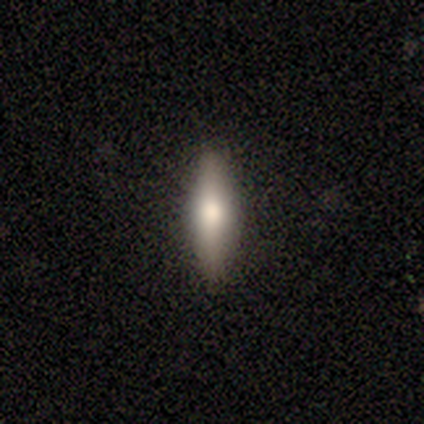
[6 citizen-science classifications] smooth 67%, featured or disk 17%, star or artifact 17%. Down the decision tree: how rounded — cigar-shaped (75%); merging — none (100%).